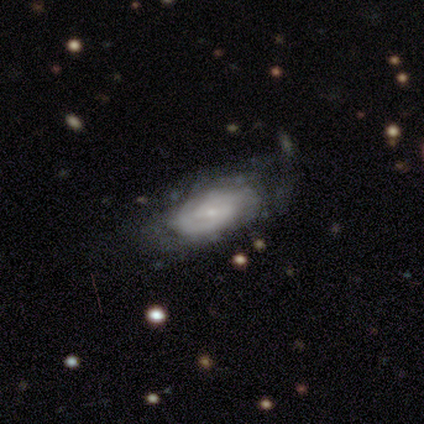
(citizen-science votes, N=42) Volunteers were most divided on "merging": none: 46%, major disturbance: 24%, minor disturbance: 22%, merger: 8%. More confident: edge-on disk — no (97%); spiral arms — yes (89%); bulge size — small (79%); smooth or featured — featured or disk (69%); spiral winding — tight (64%); spiral arm count — 2 (60%); bar — weak (57%).